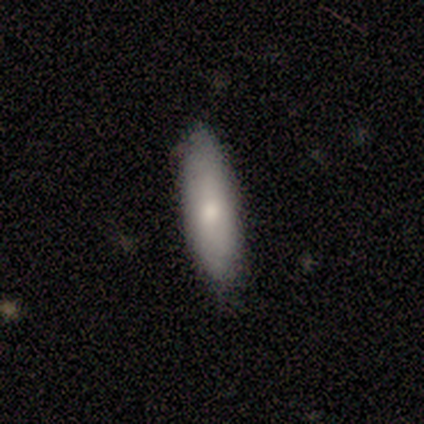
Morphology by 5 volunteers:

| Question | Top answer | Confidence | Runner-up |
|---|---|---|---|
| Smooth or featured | smooth | 80% | featured or disk (20%) |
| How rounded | cigar-shaped | 100% | — |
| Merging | none | 100% | — |